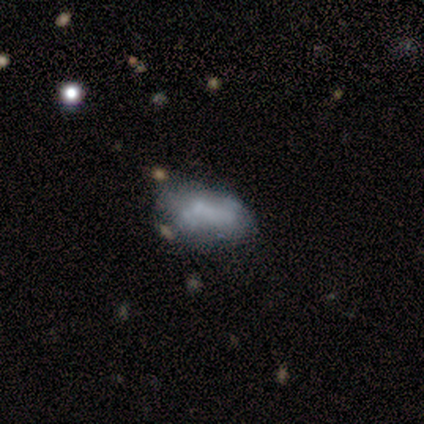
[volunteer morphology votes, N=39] Smooth or featured?
  - smooth: 49% *
  - featured or disk: 46%
  - star or artifact: 5%
How rounded?
  - in between: 95% *
  - cigar-shaped: 5%
  - round: 0%
Merging?
  - none: 54% *
  - minor disturbance: 32%
  - major disturbance: 11%
  - merger: 3%